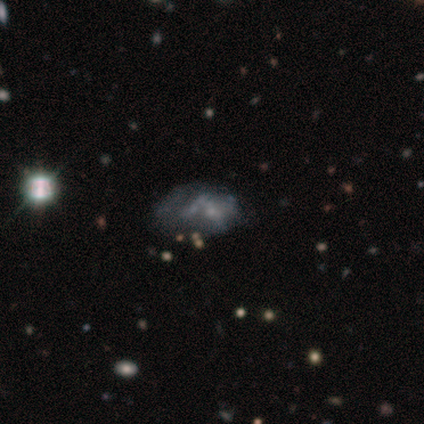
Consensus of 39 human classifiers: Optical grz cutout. It shows a featured or disk galaxy (54%) with no bar (81%), no spiral arms (95%) and a small central bulge (48%, tied with none). Merging: none (40%).